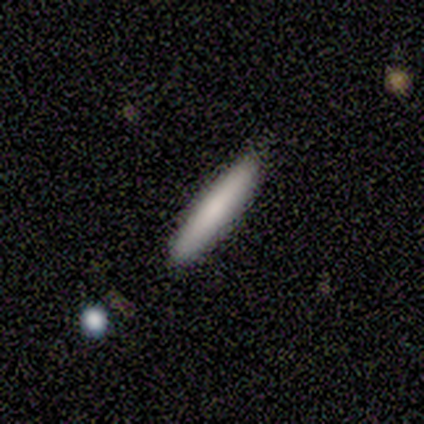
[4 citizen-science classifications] Overall: smooth (75%). How rounded: cigar-shaped (100%). Merging: none (100%).